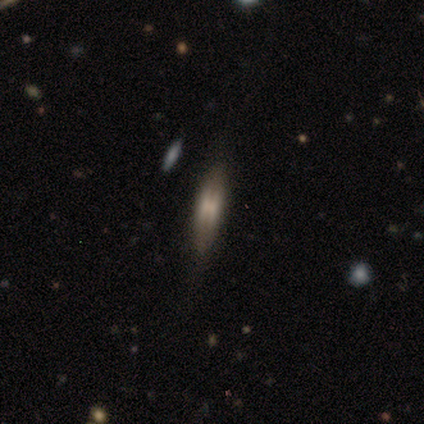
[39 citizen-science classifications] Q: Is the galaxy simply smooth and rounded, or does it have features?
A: featured or disk — 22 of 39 (56%).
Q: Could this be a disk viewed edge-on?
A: yes — 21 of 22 (95%).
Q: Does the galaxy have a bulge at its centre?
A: boxy — 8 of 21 (38%, tied with rounded).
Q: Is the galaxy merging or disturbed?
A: none — 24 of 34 (71%).